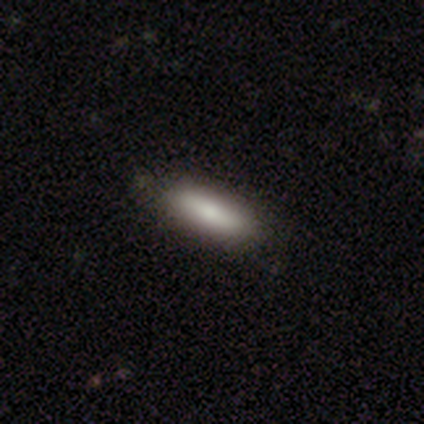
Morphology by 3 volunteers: smooth_or_featured: smooth (p=1.00)
how_rounded: cigar-shaped (p=0.67) [alt: in between p=0.33]
merging: none (p=0.67) [alt: minor disturbance p=0.33]